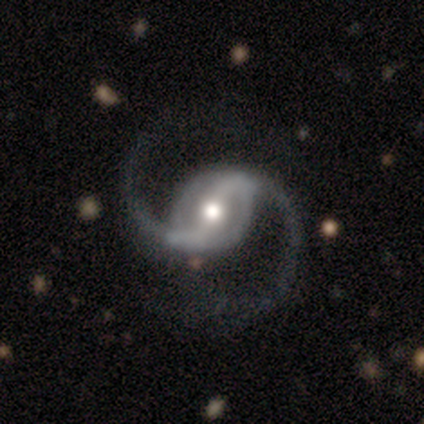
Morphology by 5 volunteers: smooth_or_featured: featured or disk (p=1.00)
disk_edge_on: no (p=1.00)
bar: weak (p=0.60) [alt: strong p=0.40]
has_spiral_arms: yes (p=1.00)
spiral_winding: loose (p=0.60) [alt: medium p=0.40]
spiral_arm_count: 2 (p=1.00)
bulge_size: moderate (p=0.60) [alt: small p=0.40]
merging: none (p=0.60) [alt: minor disturbance p=0.20]